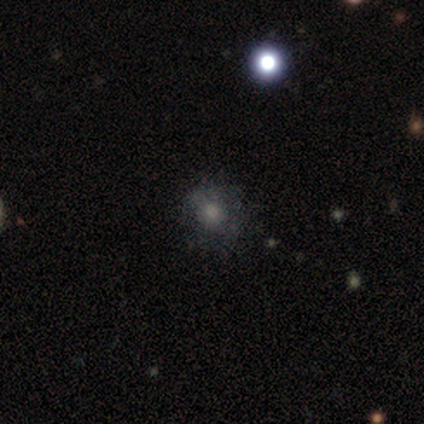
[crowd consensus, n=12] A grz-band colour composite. It shows a smooth galaxy with no disk features (58%) that is round (86%). Merging: none (50%).